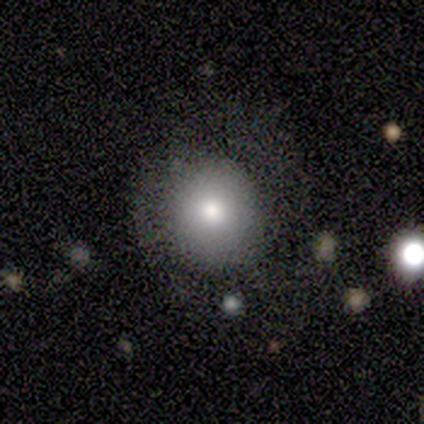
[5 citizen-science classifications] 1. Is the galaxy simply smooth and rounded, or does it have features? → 60% smooth, 40% featured or disk, 0% star or artifact.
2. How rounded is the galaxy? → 67% round, 33% in between, 0% cigar-shaped.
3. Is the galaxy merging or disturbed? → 100% none, 0% minor disturbance, 0% major disturbance, 0% merger.